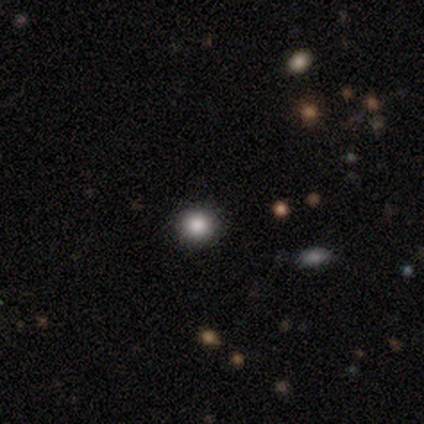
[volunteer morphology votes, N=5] type=smooth (100%); roundness=round (80%); merging=none (80%).